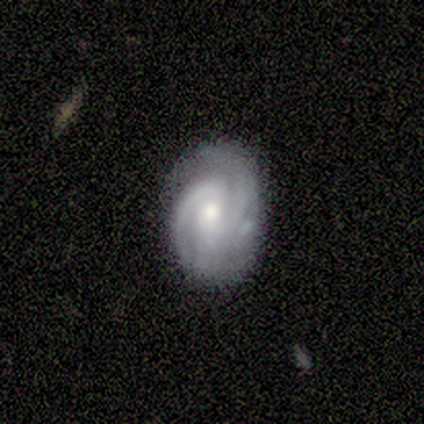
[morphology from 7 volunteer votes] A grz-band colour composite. It shows a featured or disk galaxy (71%) with no bar (60%), 2 (75%) tight (50%, tied with medium) spiral arms (80%) and a small central bulge (60%). Merging: none (83%).